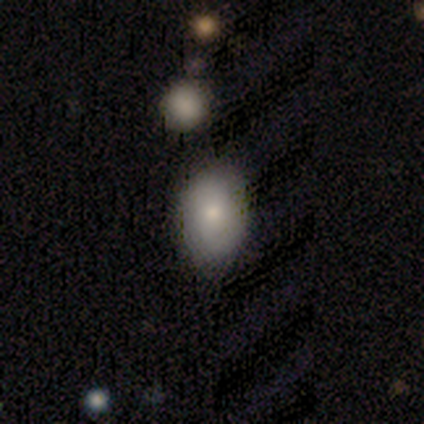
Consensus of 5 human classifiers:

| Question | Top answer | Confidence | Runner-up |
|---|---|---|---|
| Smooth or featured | smooth | 60% | featured or disk (40%) |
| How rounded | in between | 100% | — |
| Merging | none | 100% | — |